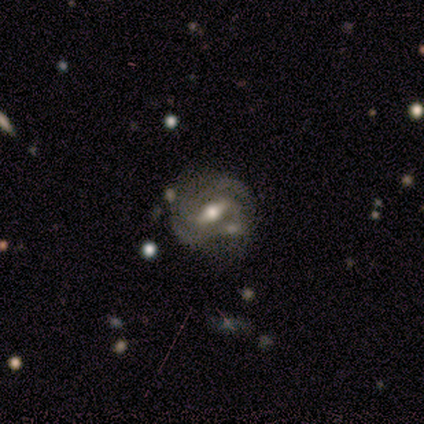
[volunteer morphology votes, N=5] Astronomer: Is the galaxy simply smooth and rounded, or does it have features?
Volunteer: featured or disk — 60%.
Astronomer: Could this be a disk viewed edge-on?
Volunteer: no — 100%.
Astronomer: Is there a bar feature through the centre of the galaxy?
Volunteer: weak — 67%.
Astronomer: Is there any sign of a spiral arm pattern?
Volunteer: yes — 100%.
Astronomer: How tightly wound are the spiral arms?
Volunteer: tight — 67%.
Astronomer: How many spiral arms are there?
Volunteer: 2 — 33%, tied with 3 and 4 at 33%.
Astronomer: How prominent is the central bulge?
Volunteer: moderate — 100%.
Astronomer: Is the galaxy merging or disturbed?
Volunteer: none — 75%.